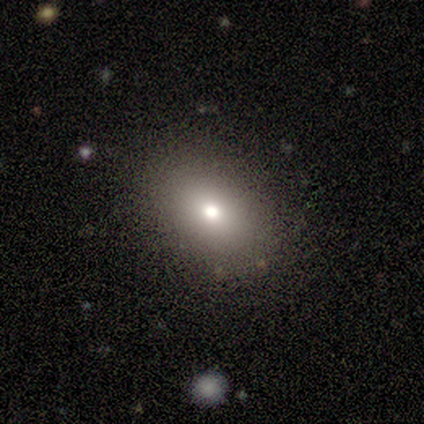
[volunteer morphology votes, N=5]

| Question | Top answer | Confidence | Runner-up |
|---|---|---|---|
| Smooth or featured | smooth | 80% | star or artifact (20%) |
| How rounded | in between | 75% | round (25%) |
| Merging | none | 100% | — |